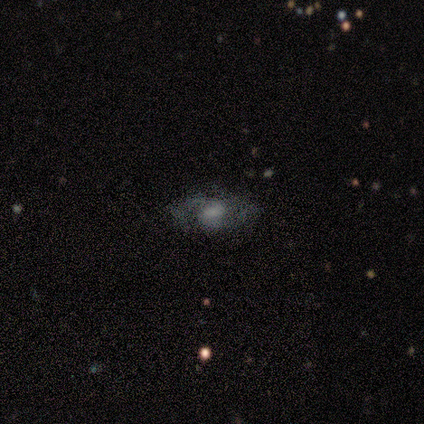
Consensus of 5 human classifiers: Morphology: type=featured or disk (80%); edge-on=no (100%); bar=no (75%); spiral arms=yes (100%); winding=medium (100%); arm count=2 (100%); bulge=small (75%); merging=none (80%).